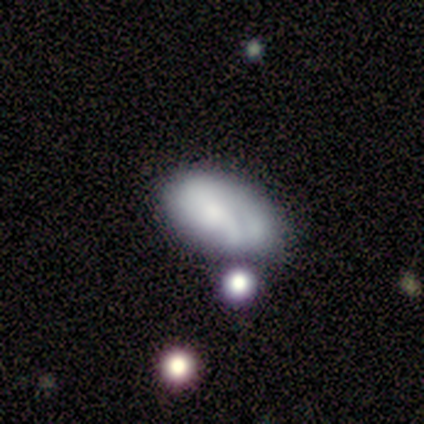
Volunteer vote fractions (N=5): A smooth galaxy with no disk features (60%) that is in between round and cigar-shaped (100%). Merging: none (60%).